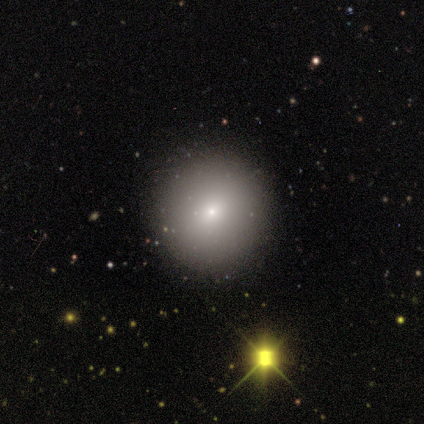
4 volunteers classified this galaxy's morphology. Smooth or featured? 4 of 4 (100%) said smooth. How rounded? 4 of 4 (100%) said round. Merging? 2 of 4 (50%, tied with minor disturbance) said none.